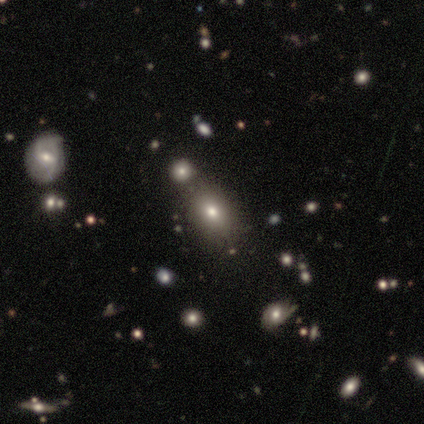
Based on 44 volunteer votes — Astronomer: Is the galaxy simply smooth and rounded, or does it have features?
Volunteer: smooth — 66%.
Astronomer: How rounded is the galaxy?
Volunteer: in between — 83%.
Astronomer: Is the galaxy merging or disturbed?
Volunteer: none — 88%.